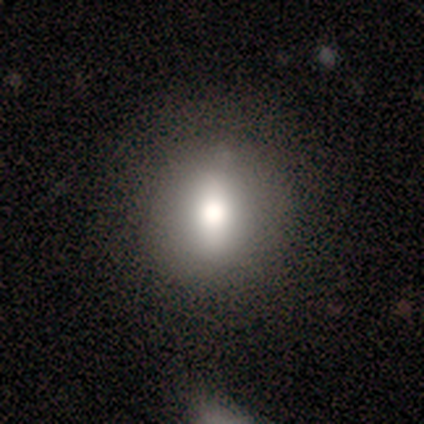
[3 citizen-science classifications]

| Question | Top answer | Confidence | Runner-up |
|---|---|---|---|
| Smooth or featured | smooth | 67% | star or artifact (33%) |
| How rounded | round | 50% | tied: cigar-shaped (50%) |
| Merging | none | 50% | tied: minor disturbance (50%) |